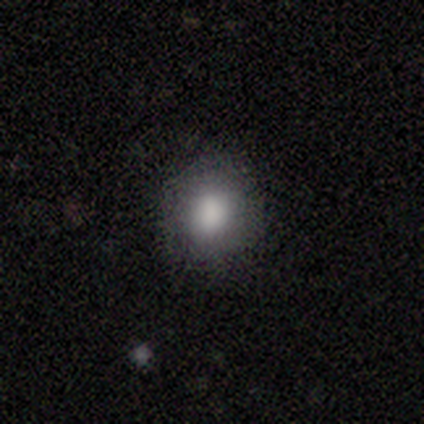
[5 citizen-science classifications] smooth_or_featured: smooth (p=0.80) [alt: star or artifact p=0.20]
how_rounded: round (p=1.00)
merging: none (p=1.00)